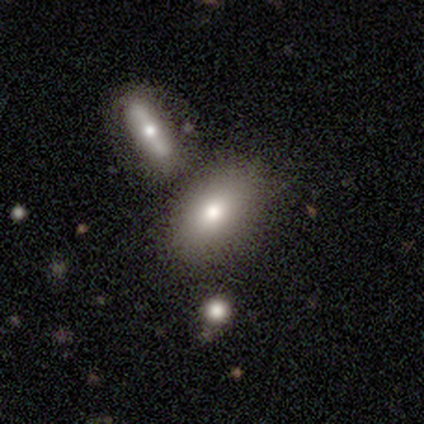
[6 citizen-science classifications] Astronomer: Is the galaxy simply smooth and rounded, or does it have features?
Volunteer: smooth — 67%.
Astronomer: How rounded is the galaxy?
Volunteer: in between — 100%.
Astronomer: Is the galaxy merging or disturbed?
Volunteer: none — 80%.